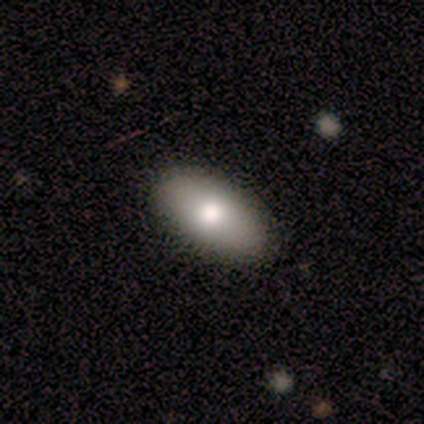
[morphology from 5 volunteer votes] Smooth or featured?
  - smooth: 80% *
  - star or artifact: 20%
  - featured or disk: 0%
How rounded?
  - in between: 100% *
  - round: 0%
  - cigar-shaped: 0%
Merging?
  - none: 100% *
  - minor disturbance: 0%
  - major disturbance: 0%
  - merger: 0%